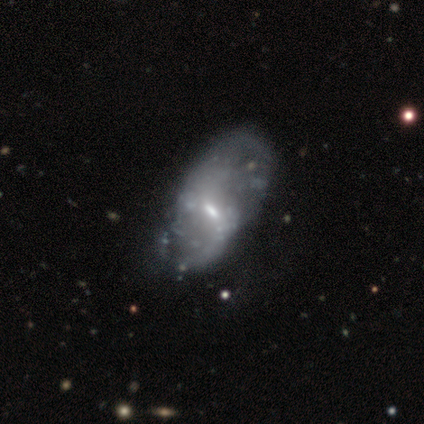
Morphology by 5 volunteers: This appears to be a featured or disk galaxy (100%) with a weak bar (40%, tied with no), 2 (100%) medium (67%) spiral arms (60%) and a small central bulge (60%). Merging: minor disturbance (40%, tied with major disturbance).